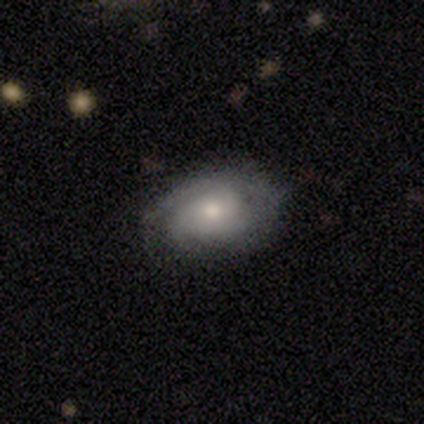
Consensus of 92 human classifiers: This appears to be a featured or disk galaxy (61%) with no bar (72%), 2 (33%) tight (70%) spiral arms (92%) and a moderate central bulge (68%). Merging: none (68%).